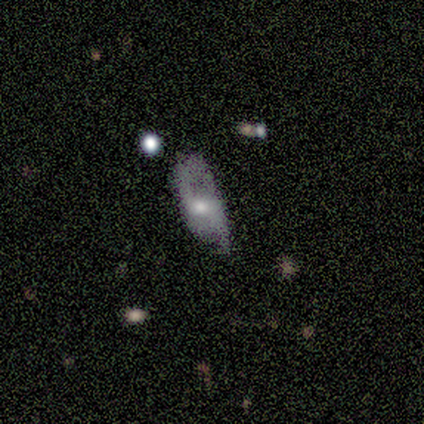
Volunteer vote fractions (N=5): Overall: smooth (60%; featured or disk 40%). How rounded: in between (100%). Merging: none (40%, tied with major disturbance).